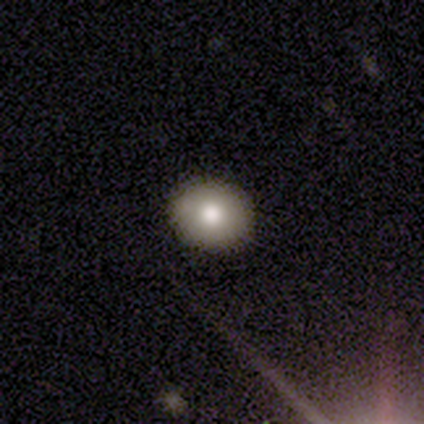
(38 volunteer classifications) Smooth or featured? 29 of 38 (76%) said smooth. How rounded? 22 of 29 (76%) said round. Merging? 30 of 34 (88%) said none.